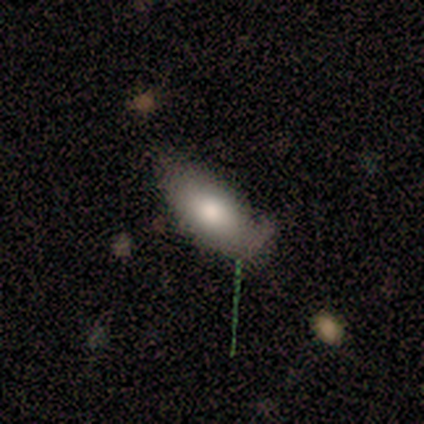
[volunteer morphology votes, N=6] Smooth or featured?
  - smooth: 67% *
  - featured or disk: 33%
  - star or artifact: 0%
How rounded?
  - in between: 100% *
  - round: 0%
  - cigar-shaped: 0%
Merging?
  - minor disturbance: 83% *
  - none: 17%
  - major disturbance: 0%
  - merger: 0%